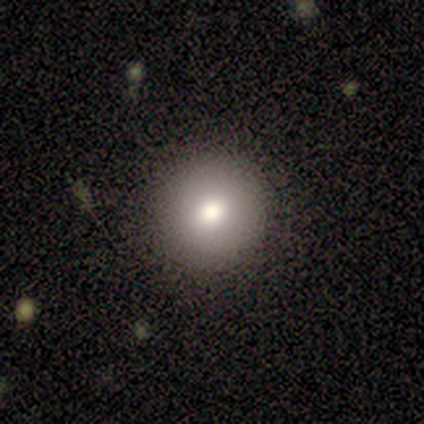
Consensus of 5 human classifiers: This is likely a smooth galaxy (60%). How rounded: clearly round (100%). Merging: likely none (75%).